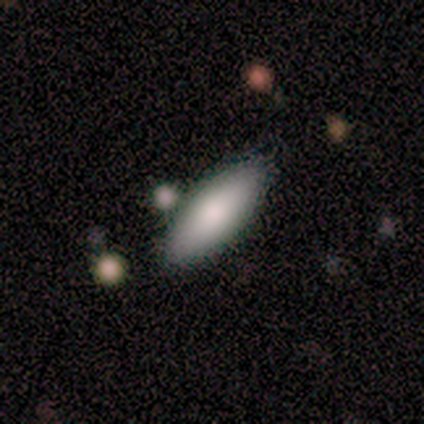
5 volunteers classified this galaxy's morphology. This is clearly a smooth galaxy (100%). How rounded: clearly in between (80%). Merging: likely none (60%).